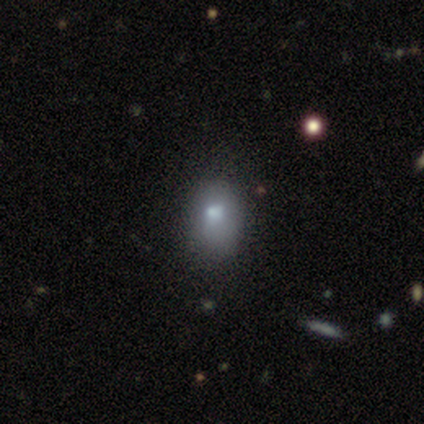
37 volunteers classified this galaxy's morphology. type=smooth (78%); roundness=in between (72%); merging=minor disturbance (26%).